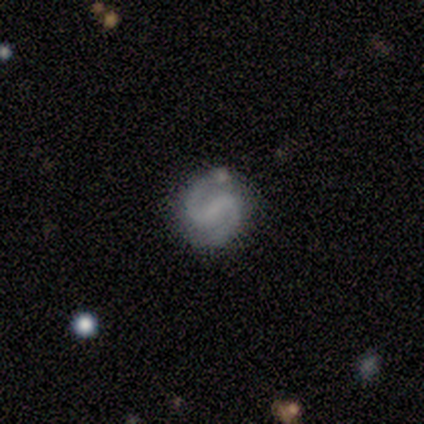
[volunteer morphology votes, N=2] This appears to be a smooth galaxy with no disk features (50%, tied with featured or disk) that is round (100%). Merging: none (100%).